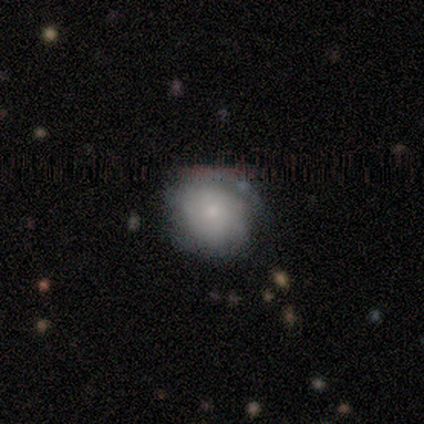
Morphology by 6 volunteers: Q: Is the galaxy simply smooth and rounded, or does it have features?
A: smooth — 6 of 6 (100%).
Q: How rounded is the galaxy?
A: round — 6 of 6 (100%).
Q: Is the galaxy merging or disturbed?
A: none — 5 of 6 (83%).